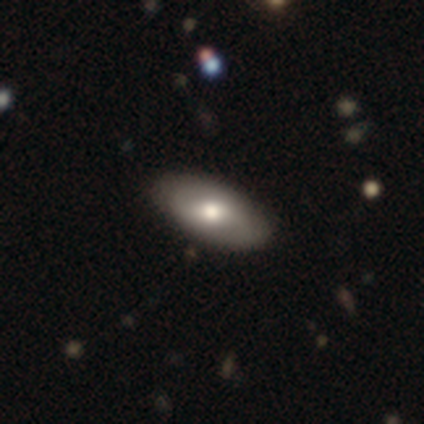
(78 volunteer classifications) Overall: smooth (64%; featured or disk 35%). How rounded: in between (96%). Merging: none (48%).